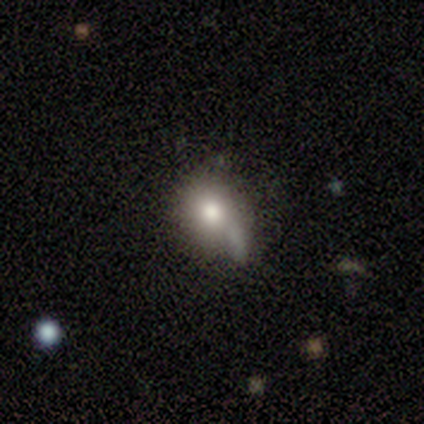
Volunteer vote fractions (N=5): This appears to be a smooth galaxy with no disk features (60%) that is round (100%). Merging: none (60%).